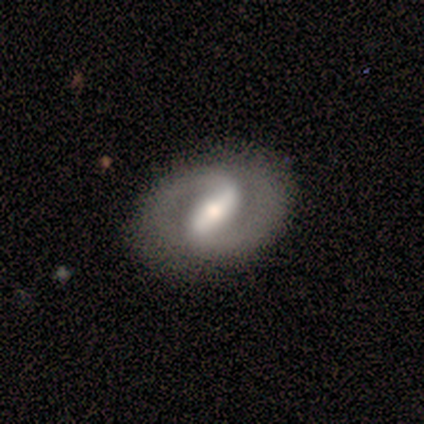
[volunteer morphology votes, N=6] Smooth or featured: featured or disk — 67% (smooth — 33%)
Edge-on disk: no — 100%
Bar: strong — 75% (weak — 25%)
Spiral arms: yes — 100%
Spiral winding: tight — 50% (medium — 25%)
Spiral arm count: 2 — 100%
Bulge size: moderate — 50% (large — 25%)
Merging: none — 83% (minor disturbance — 17%)